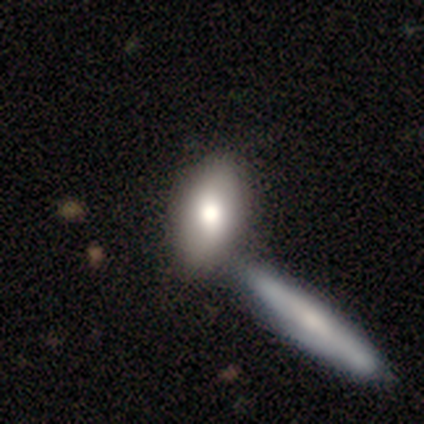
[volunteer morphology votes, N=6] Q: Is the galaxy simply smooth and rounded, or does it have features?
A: smooth — 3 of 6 (50%).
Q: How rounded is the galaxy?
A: in between — 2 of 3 (67%).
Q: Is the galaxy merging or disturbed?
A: none — 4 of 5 (80%).